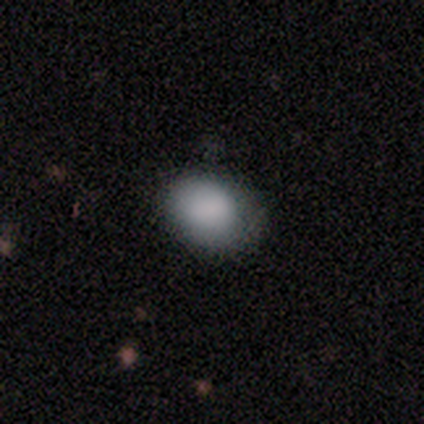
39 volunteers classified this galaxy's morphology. smooth-or-featured: smooth: 92% | featured or disk: 5% | star or artifact: 3%
  how-rounded: in between: 64% | round: 36% | cigar-shaped: 0%
  merging: none: 66% | minor disturbance: 26% | major disturbance: 8% | merger: 0%